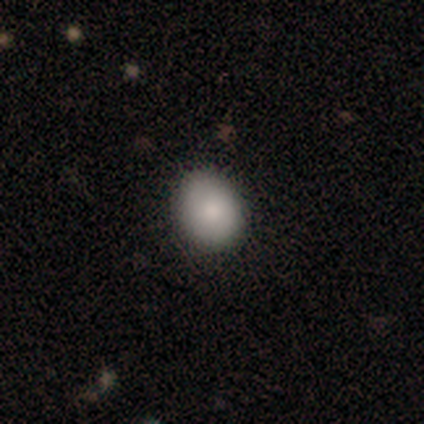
Morphology: type=smooth (98%); roundness=round (59%); merging=none (85%).